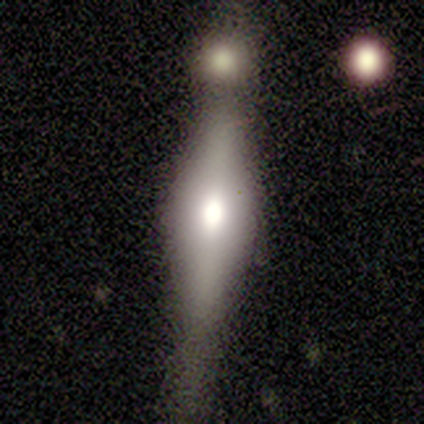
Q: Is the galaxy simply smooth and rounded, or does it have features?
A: smooth — 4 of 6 (67%).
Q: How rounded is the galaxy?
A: cigar-shaped — 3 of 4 (75%).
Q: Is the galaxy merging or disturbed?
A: none — 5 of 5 (100%).